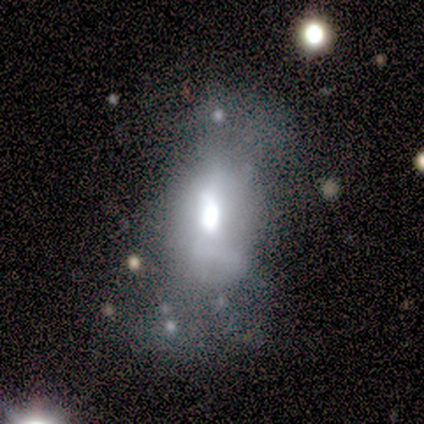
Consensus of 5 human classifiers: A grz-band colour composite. It shows a smooth galaxy with no disk features (40%, tied with featured or disk) that is in between round and cigar-shaped (50%, tied with cigar-shaped). Merging: minor disturbance (75%).